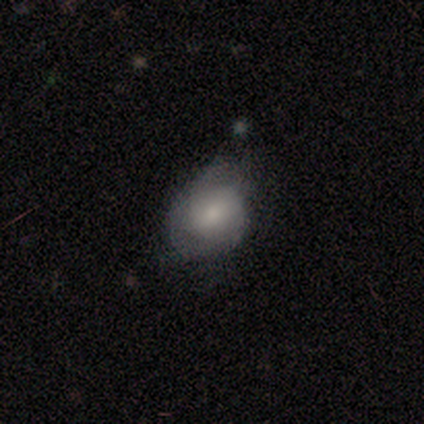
Smooth or featured: smooth — 100%
How rounded: round — 50% (tied with in between — 50%)
Merging: none — 50% (major disturbance — 25%)